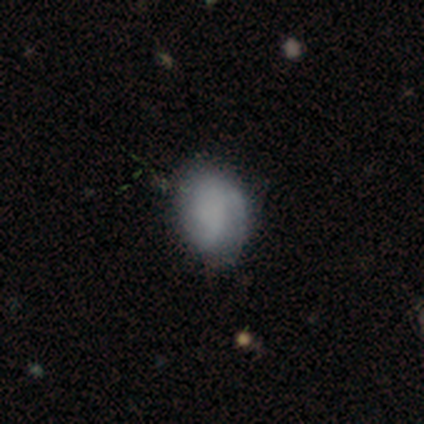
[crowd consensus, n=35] Volunteers were most divided on "merging": none: 58%, minor disturbance: 30%, major disturbance: 12%, merger: 0%. More confident: how rounded — in between (75%); smooth or featured — smooth (69%).